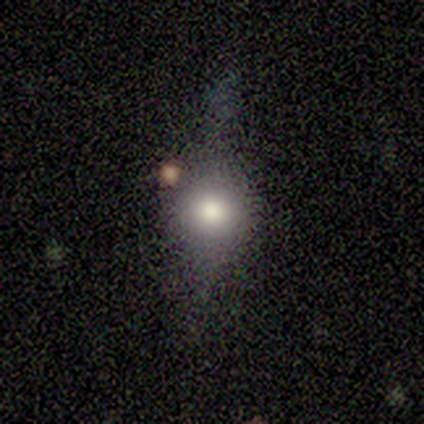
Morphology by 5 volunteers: smooth-or-featured: smooth: 40% (tied) | featured or disk: 40% (tied) | star or artifact: 20%
  how-rounded: round: 100% | in between: 0% | cigar-shaped: 0%
  merging: none: 75% | minor disturbance: 25% | major disturbance: 0% | merger: 0%